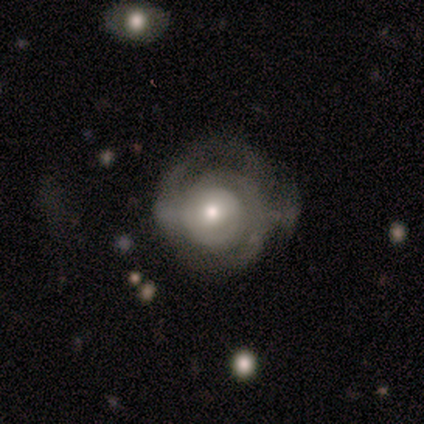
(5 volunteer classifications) smooth-or-featured: featured or disk: 60% | smooth: 40% | star or artifact: 0%
  disk-edge-on: no: 100% | yes: 0%
    bar: no: 67% | weak: 33% | strong: 0%
    has-spiral-arms: no: 67% | yes: 33%
    bulge-size: large: 33% (tied) | moderate: 33% (tied) | small: 33% (tied) | dominant: 0% | none: 0%
  merging: minor disturbance: 60% | none: 40% | major disturbance: 0% | merger: 0%